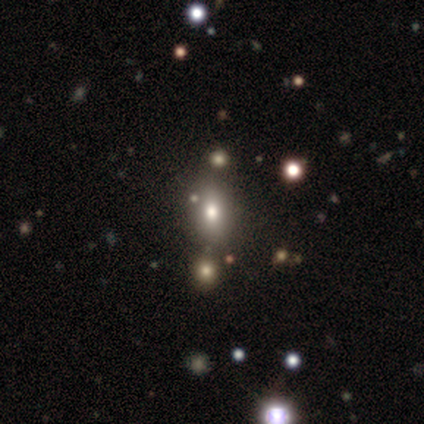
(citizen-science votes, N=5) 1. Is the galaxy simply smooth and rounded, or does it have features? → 60% smooth, 40% star or artifact, 0% featured or disk.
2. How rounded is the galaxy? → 100% in between, 0% round, 0% cigar-shaped.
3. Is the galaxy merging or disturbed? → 100% none, 0% minor disturbance, 0% major disturbance, 0% merger.